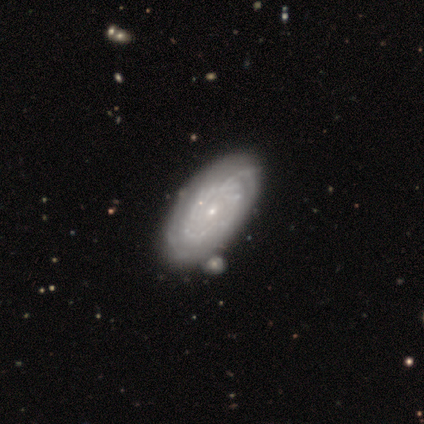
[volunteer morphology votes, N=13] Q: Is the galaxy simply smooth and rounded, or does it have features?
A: featured or disk — 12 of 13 (92%).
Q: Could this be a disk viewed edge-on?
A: no — 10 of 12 (83%).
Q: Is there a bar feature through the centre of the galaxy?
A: no — 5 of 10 (50%).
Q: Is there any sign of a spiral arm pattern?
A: yes — 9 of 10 (90%).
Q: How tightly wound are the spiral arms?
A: tight — 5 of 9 (56%).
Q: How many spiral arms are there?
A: can't tell — 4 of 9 (44%).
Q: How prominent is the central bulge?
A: small — 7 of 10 (70%).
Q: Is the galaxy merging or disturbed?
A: none — 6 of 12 (50%).